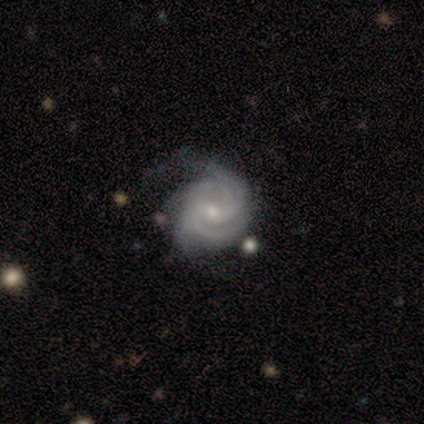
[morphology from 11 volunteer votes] This appears to be a featured or disk galaxy (100%) with no bar (70%), 2 (30%, tied with can't tell) medium (50%) spiral arms (100%) and a small central bulge (70%). Merging: none (64%).